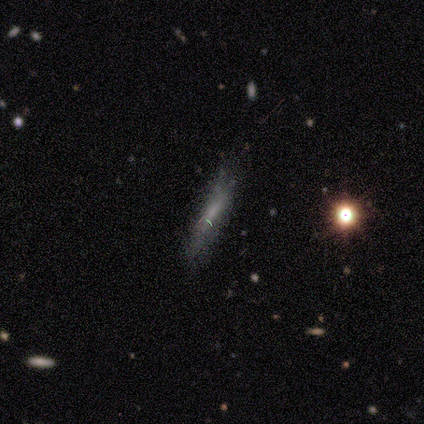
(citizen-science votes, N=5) smooth-or-featured: smooth: 60% | featured or disk: 40% | star or artifact: 0%
  how-rounded: cigar-shaped: 67% | in between: 33% | round: 0%
  merging: none: 80% | minor disturbance: 20% | major disturbance: 0% | merger: 0%